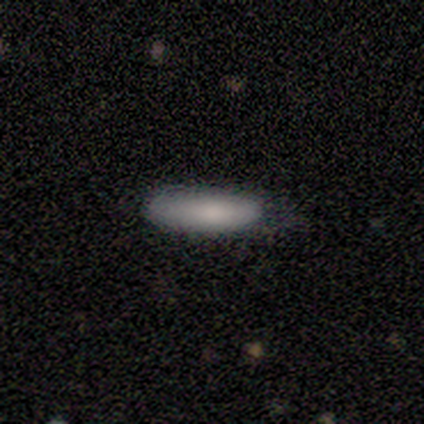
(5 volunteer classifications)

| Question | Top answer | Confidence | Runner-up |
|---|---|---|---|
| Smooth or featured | smooth | 100% | — |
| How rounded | in between | 60% | cigar-shaped (40%) |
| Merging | none | 80% | minor disturbance (20%) |